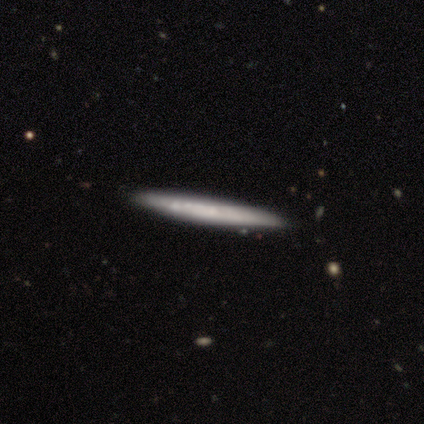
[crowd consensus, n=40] This appears to be a smooth galaxy with no disk features (52%) that is cigar-shaped (100%). Merging: none (84%).